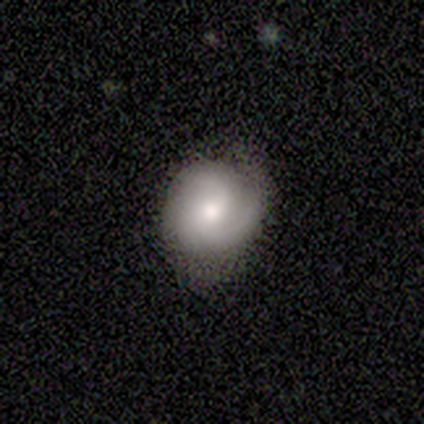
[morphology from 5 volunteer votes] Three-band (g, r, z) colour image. It shows a featured or disk galaxy (60%) with no bar (67%), 2 (67%) tight (67%) spiral arms (100%) and a small central bulge (67%). Merging: none (100%).